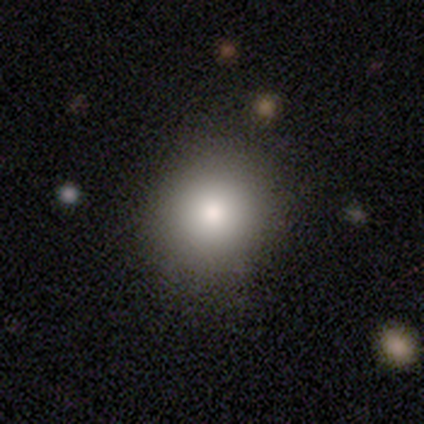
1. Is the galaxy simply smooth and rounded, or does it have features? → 86% smooth, 10% star or artifact, 5% featured or disk.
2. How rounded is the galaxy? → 86% round, 13% in between, 1% cigar-shaped.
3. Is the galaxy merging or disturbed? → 97% none, 3% minor disturbance, 0% major disturbance, 0% merger.